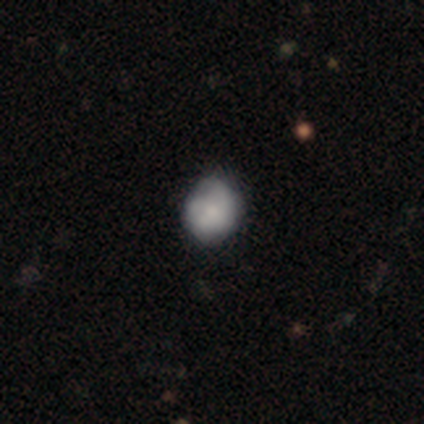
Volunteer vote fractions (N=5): Morphology: type=smooth (80%); roundness=round (100%); merging=none (60%).